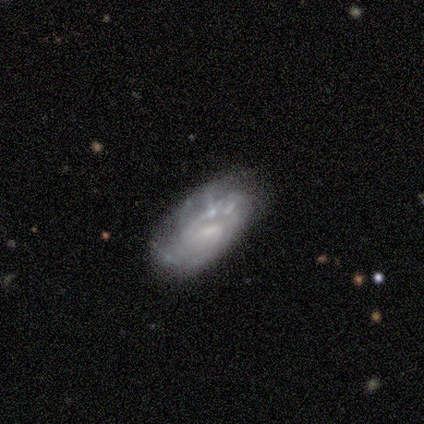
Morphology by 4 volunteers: This is likely a featured or disk galaxy (75%). It is clearly not viewed edge-on (100%). Bar: likely no (67%). Spiral arm pattern: likely no (67%). Central bulge: likely small (67%). Merging: possibly major disturbance (50%).